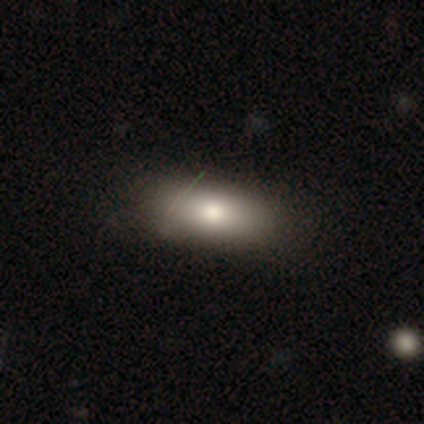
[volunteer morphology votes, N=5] Smooth or featured?
  - smooth: 100% *
  - featured or disk: 0%
  - star or artifact: 0%
How rounded?
  - in between: 60% *
  - cigar-shaped: 40%
  - round: 0%
Merging?
  - none: 80% *
  - merger: 20%
  - minor disturbance: 0%
  - major disturbance: 0%